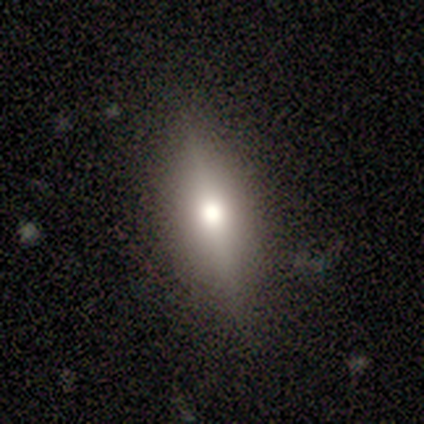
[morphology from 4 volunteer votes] This is possibly a smooth galaxy (50%). How rounded: clearly in between (100%). Merging: likely minor disturbance (67%).